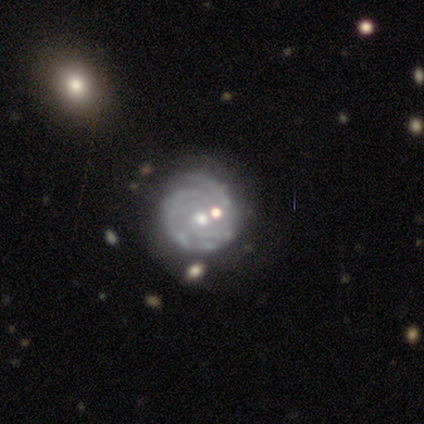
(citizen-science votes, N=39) smooth-or-featured: featured or disk: 95% | smooth: 3% | star or artifact: 3%
  disk-edge-on: no: 97% | yes: 3%
    bar: no: 86% | strong: 8% | weak: 6%
    has-spiral-arms: yes: 100% | no: 0%
      spiral-winding: tight: 78% | medium: 19% | loose: 3%
      spiral-arm-count: can't tell: 36% | 3: 19% | 2: 17% | 4: 14% | 1: 11% | more than 4: 3%
    bulge-size: moderate: 53% | small: 44% | none: 3% | dominant: 0% | large: 0%
  merging: none: 63% | minor disturbance: 21% | merger: 16% | major disturbance: 0%